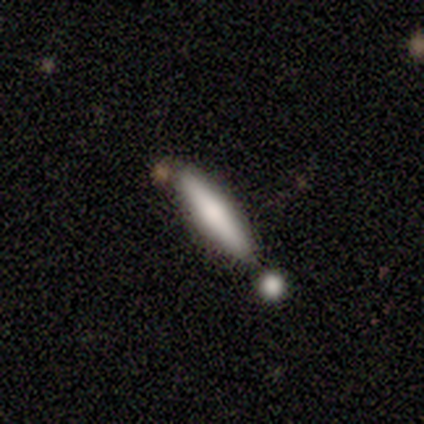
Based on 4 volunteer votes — This is possibly a smooth galaxy (50%). How rounded: clearly cigar-shaped (100%). Merging: clearly none (100%).